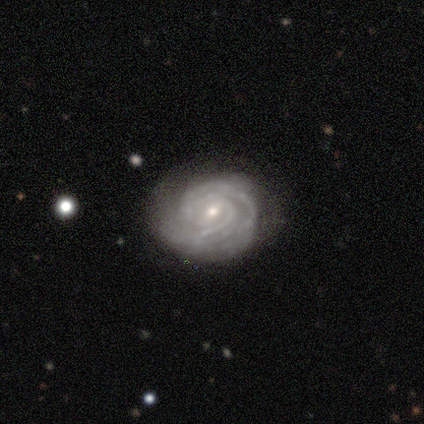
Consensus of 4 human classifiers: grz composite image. It shows a featured or disk galaxy (75%) with a strong bar (67%), 2 (33%, tied with 4 and can't tell) tight (100%) spiral arms (100%) and a small central bulge (67%). Merging: none (75%).